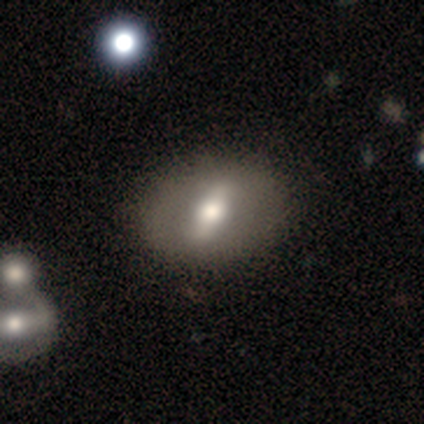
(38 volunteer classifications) A featured or disk galaxy (63%) with a strong bar (82%), no spiral arms (82%) and a moderate central bulge (55%). Merging: none (92%).